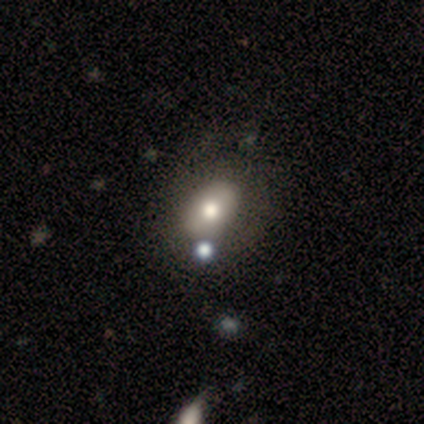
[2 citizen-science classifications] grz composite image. It shows a smooth galaxy with no disk features (100%) that is in between round and cigar-shaped (100%). Merging: none (50%, tied with minor disturbance).